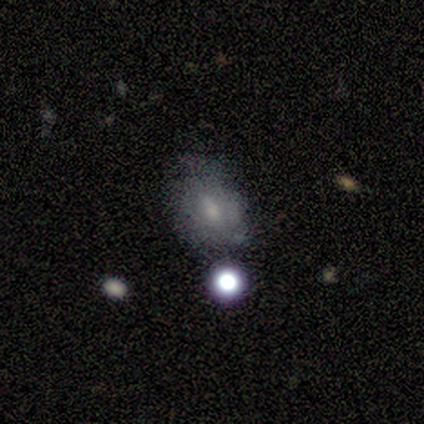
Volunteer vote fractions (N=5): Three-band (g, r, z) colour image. It shows a smooth galaxy with no disk features (80%) that is round (50%, tied with in between). Merging: none (100%).